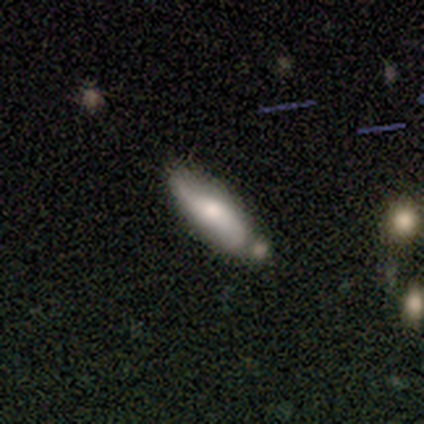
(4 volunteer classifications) Smooth or featured? featured or disk (75%)
Edge-on disk? no (67%)
Bar? no (100%)
Spiral arms? yes (50%, tied with no)
Spiral winding? loose (100%)
Spiral arm count? 2 (100%)
Bulge size? dominant (50%, tied with moderate)
Merging? none (50%, tied with merger)